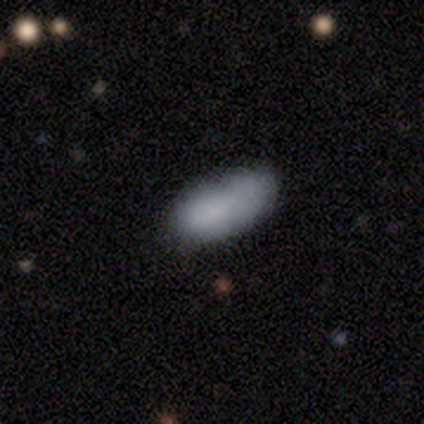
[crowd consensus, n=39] Smooth or featured? smooth (90%)
How rounded? in between (83%)
Merging? none (61%)